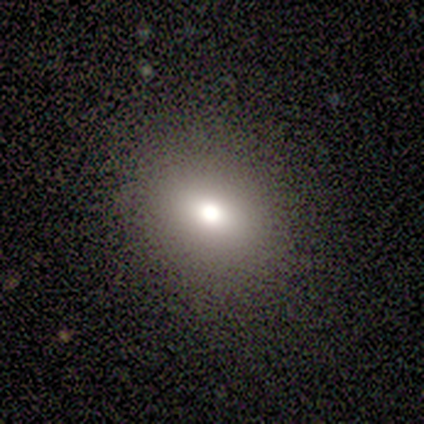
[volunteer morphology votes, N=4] Smooth or featured? smooth (75%)
How rounded? in between (67%)
Merging? none (75%)